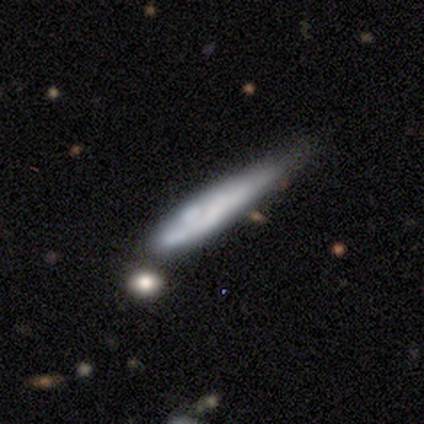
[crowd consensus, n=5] A featured or disk galaxy (60%) viewed edge-on (67%) with no central bulge (100%). Merging: major disturbance (60%).